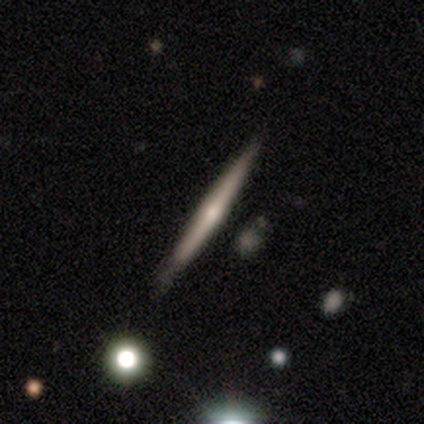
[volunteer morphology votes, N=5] This appears to be a smooth galaxy with no disk features (60%) that is cigar-shaped (100%). Merging: none (80%).